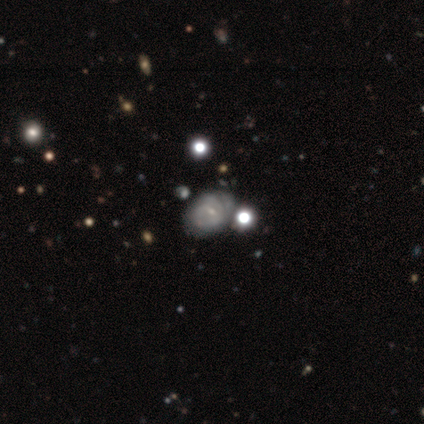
A featured or disk galaxy (70%) with no bar (54%), tight (67%) spiral arms (81%) and a small central bulge (58%).

Vote fractions:
- Smooth or featured? featured or disk: 70% / smooth: 25% / star or artifact: 5%
- Edge-on disk? no: 93% / yes: 7%
- Bar? no: 54% / weak: 38% / strong: 8%
- Spiral arms? yes: 81% / no: 19%
- Spiral winding? tight: 67% / medium: 29% / loose: 5%
- Spiral arm count? can't tell: 57% / 1: 10% / 2: 10% / 3: 10% / more than 4: 10% / 4: 5%
- Bulge size? small: 58% / moderate: 19% / none: 19% / large: 4% / dominant: 0%
- Merging? none: 32% / major disturbance: 13% / merger: 11% / minor disturbance: 8%